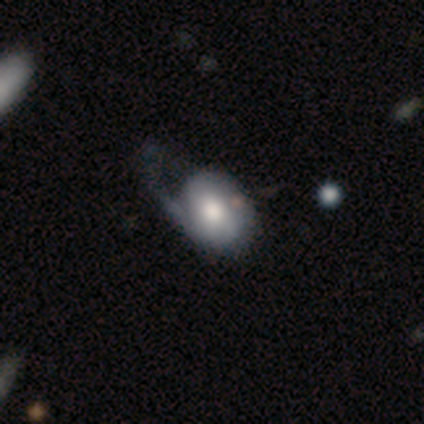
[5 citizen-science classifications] smooth_or_featured: smooth (p=0.60) [alt: featured or disk p=0.40]
how_rounded: in between (p=1.00)
merging: minor disturbance (p=0.40) [tied with: major disturbance p=0.40]